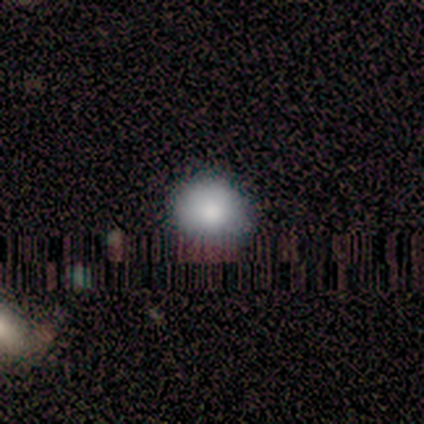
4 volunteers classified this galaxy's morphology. smooth_or_featured: smooth (p=1.00)
how_rounded: round (p=1.00)
merging: none (p=1.00)